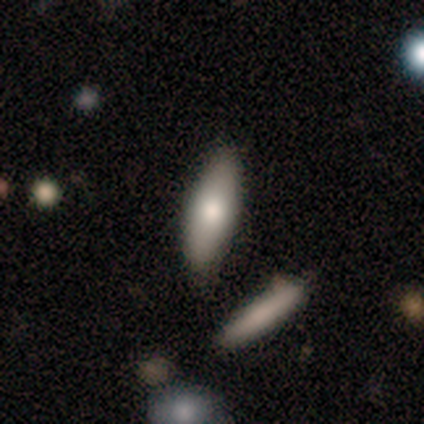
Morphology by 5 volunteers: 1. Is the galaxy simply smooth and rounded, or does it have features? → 40% smooth (tied), 40% featured or disk (tied), 20% star or artifact.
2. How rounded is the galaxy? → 100% in between, 0% round, 0% cigar-shaped.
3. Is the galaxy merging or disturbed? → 100% none, 0% minor disturbance, 0% major disturbance, 0% merger.